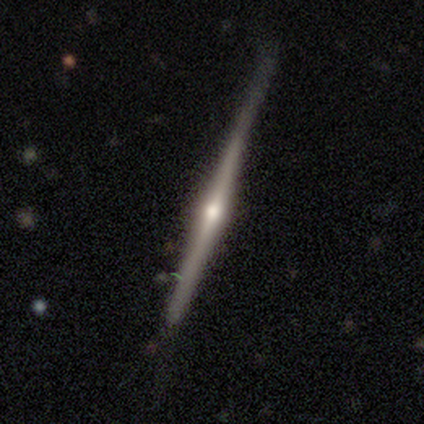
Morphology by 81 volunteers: Smooth or featured?
  - featured or disk: 81% *
  - smooth: 17%
  - star or artifact: 1%
Edge-on disk?
  - yes: 97% *
  - no: 3%
Edge-on bulge?
  - rounded: 89% *
  - boxy: 6%
  - none: 5%
Merging?
  - none: 52% *
  - minor disturbance: 12%
  - major disturbance: 6%
  - merger: 1%